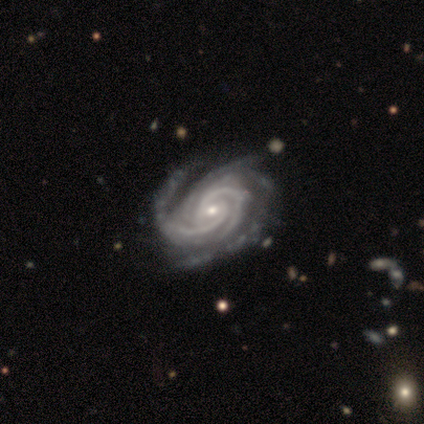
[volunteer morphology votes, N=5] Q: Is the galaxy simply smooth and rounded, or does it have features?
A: featured or disk — 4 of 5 (80%).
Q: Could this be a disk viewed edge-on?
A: no — 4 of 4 (100%).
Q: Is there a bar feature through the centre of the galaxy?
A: weak — 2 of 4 (50%).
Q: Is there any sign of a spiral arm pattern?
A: yes — 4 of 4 (100%).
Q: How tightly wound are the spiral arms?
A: tight — 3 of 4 (75%).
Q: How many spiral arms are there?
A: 4 — 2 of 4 (50%).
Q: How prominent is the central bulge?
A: small — 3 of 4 (75%).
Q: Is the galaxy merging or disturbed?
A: none — 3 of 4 (75%).